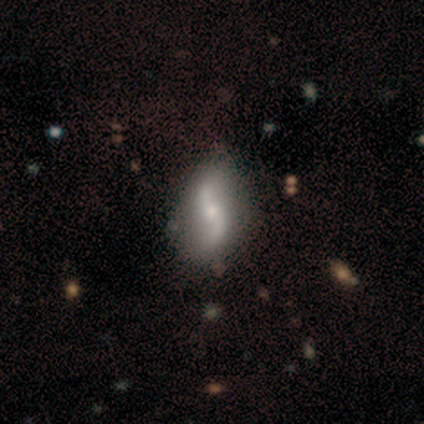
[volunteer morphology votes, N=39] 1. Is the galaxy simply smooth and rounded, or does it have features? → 90% featured or disk, 8% smooth, 3% star or artifact.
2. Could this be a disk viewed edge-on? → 100% no, 0% yes.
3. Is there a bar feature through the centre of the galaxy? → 51% no, 31% weak, 17% strong.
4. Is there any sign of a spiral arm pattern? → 94% yes, 6% no.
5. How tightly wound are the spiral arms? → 94% loose, 3% tight, 3% medium.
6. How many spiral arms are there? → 97% 2, 3% 1, 0% 3, 0% 4, 0% more than 4, 0% can't tell.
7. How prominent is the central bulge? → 51% moderate, 46% small, 3% none, 0% dominant, 0% large.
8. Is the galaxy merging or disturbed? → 61% none, 16% minor disturbance, 3% major disturbance, 3% merger.